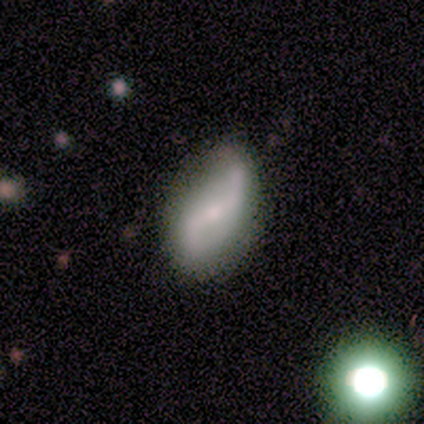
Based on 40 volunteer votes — A featured or disk galaxy (80%) with a strong bar (44%, tied with weak), 2 (100%) loose (77%) spiral arms (94%) and a small central bulge (56%). Merging: none (55%).